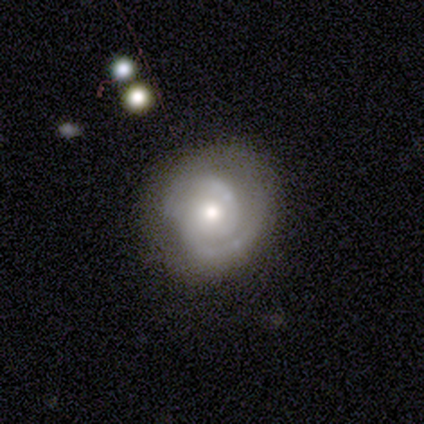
smooth-or-featured: featured or disk: 85% | smooth: 8% | star or artifact: 8%
  disk-edge-on: no: 94% | yes: 6%
    bar: no: 77% | weak: 16% | strong: 6%
    has-spiral-arms: yes: 90% | no: 10%
      spiral-winding: tight: 57% | medium: 39% | loose: 4%
      spiral-arm-count: 2: 82% | can't tell: 11% | 1: 7% | 3: 0% | 4: 0% | more than 4: 0%
    bulge-size: moderate: 48% | small: 32% | large: 19% | dominant: 0% | none: 0%
  merging: none: 86% | minor disturbance: 11% | major disturbance: 3% | merger: 0%